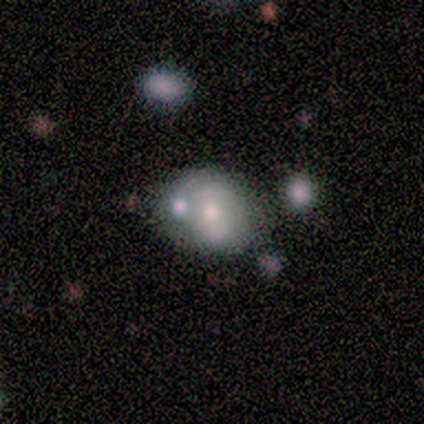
This appears to be a featured or disk galaxy (75%) with a strong bar (50%, tied with weak), 2 (50%, tied with can't tell) medium (100%) spiral arms (100%) and a moderate central bulge (50%, tied with small). Merging: none (33%, tied with minor disturbance and merger).